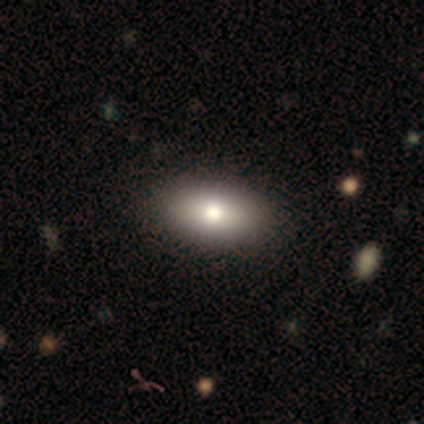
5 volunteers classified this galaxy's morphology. Q: Smooth or featured?
A: smooth (80%); runner-up: featured or disk (20%)
Q: How rounded?
A: in between (100%)
Q: Merging?
A: none (100%)